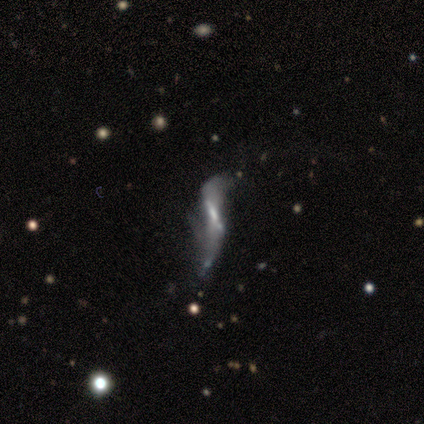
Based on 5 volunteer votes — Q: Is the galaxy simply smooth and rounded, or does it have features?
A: featured or disk — 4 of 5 (80%).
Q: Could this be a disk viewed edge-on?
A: yes — 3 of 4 (75%).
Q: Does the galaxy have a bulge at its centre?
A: none — 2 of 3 (67%).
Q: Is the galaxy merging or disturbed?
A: none — 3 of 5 (60%).